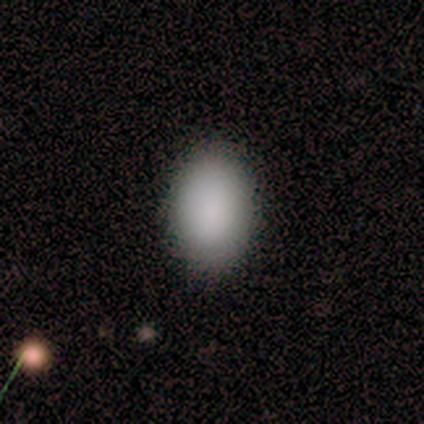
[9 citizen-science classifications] Smooth or featured? 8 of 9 (89%) said smooth. How rounded? 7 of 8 (88%) said in between. Merging? 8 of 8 (100%) said none.